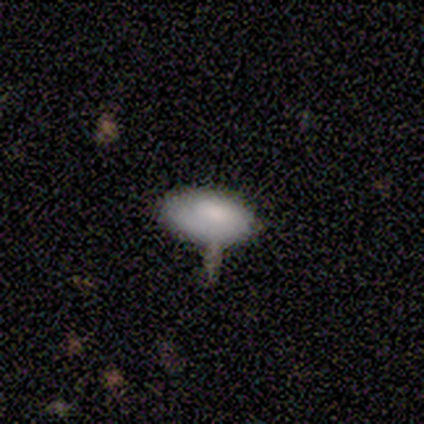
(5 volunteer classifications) Overall: smooth (60%; featured or disk 40%). How rounded: in between (100%). Merging: none (60%; merger 40%).